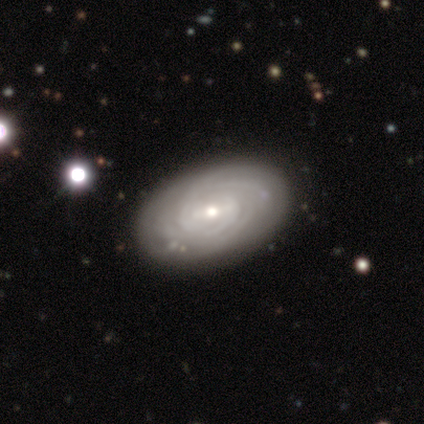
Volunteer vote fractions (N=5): This appears to be a featured or disk galaxy (100%) with no bar (60%), more than 4 (40%) tight (80%) spiral arms (100%) and a small central bulge (60%). Merging: none (100%).